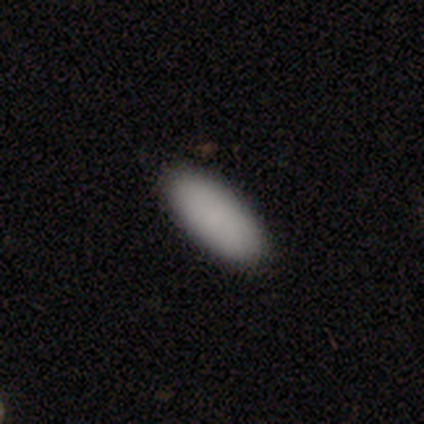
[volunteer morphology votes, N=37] Volunteers were most divided on "how rounded": in between: 79%, cigar-shaped: 21%, round: 0%. More confident: merging — none (94%); smooth or featured — smooth (89%).